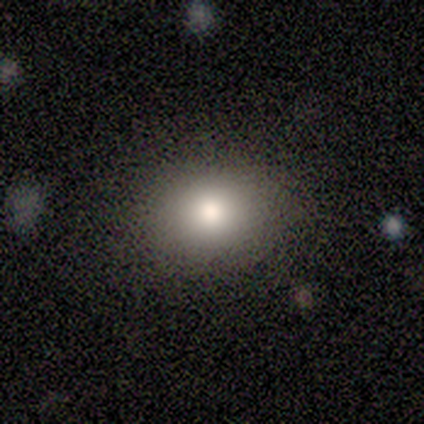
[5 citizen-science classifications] smooth_or_featured: smooth (p=0.80) [alt: star or artifact p=0.20]
how_rounded: round (p=0.75) [alt: in between p=0.25]
merging: none (p=1.00)